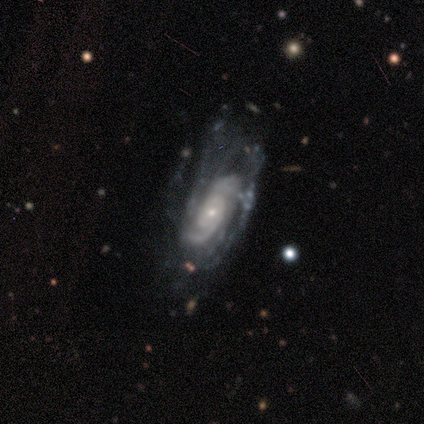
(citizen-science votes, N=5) Smooth or featured?
  - featured or disk: 80% *
  - smooth: 20%
  - star or artifact: 0%
Edge-on disk?
  - no: 75% *
  - yes: 25%
Bar?
  - weak: 67% *
  - strong: 33%
  - no: 0%
Spiral arms?
  - yes: 100% *
  - no: 0%
Spiral winding?
  - tight: 67% *
  - loose: 33%
  - medium: 0%
Spiral arm count?
  - 2: 33% * (tied)
  - 3: 33% * (tied)
  - can't tell: 33% * (tied)
  - 1: 0%
  - 4: 0%
  - more than 4: 0%
Bulge size?
  - small: 100% *
  - dominant: 0%
  - large: 0%
  - moderate: 0%
  - none: 0%
Merging?
  - none: 60% *
  - minor disturbance: 40%
  - major disturbance: 0%
  - merger: 0%